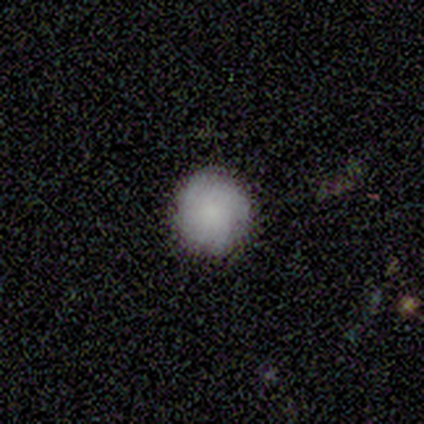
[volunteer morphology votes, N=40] Q: Smooth or featured?
A: smooth (62%); runner-up: featured or disk (22%)
Q: How rounded?
A: round (96%); runner-up: in between (4%)
Q: Merging?
A: none (88%); runner-up: minor disturbance (12%)